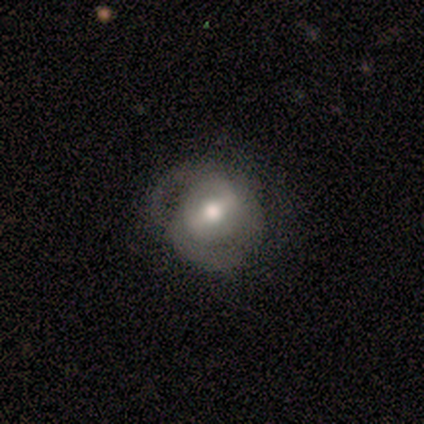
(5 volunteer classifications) Smooth or featured? featured or disk (80%)
Edge-on disk? no (100%)
Bar? weak (75%)
Spiral arms? yes (100%)
Spiral winding? medium (75%)
Spiral arm count? 2 (75%)
Bulge size? moderate (100%)
Merging? none (60%)